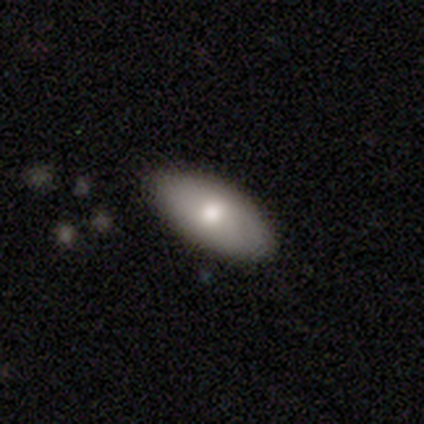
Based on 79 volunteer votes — Smooth or featured?
  - smooth: 68% *
  - featured or disk: 27%
  - star or artifact: 5%
How rounded?
  - in between: 91% *
  - cigar-shaped: 7%
  - round: 2%
Merging?
  - none: 45% *
  - minor disturbance: 5%
  - merger: 4%
  - major disturbance: 0%